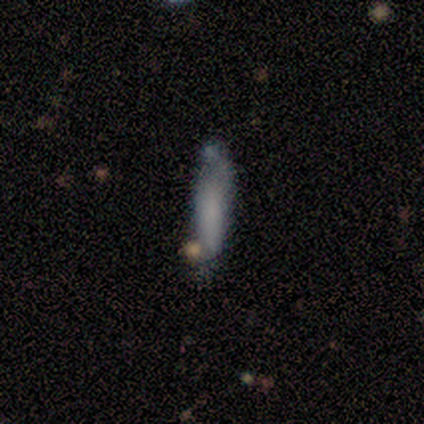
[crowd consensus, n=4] smooth 75%, featured or disk 25%, star or artifact 0%. Down the decision tree: how rounded — cigar-shaped (67%); merging — none (50%).